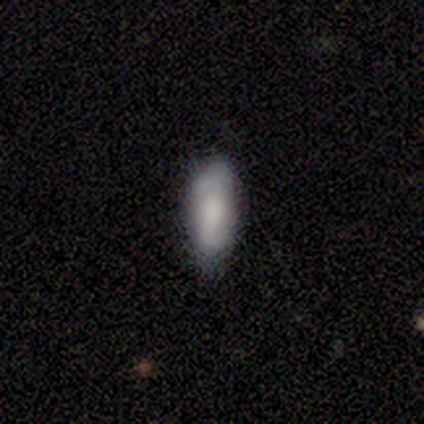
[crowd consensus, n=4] This is clearly a smooth galaxy (100%). How rounded: possibly in between (50%, tied with cigar-shaped). Merging: likely none (75%).